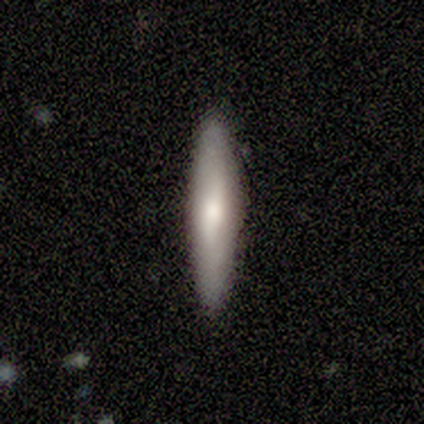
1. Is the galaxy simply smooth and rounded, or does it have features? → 60% featured or disk, 40% smooth, 0% star or artifact.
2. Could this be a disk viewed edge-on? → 100% yes, 0% no.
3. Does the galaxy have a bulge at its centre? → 100% rounded, 0% boxy, 0% none.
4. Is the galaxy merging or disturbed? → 100% none, 0% minor disturbance, 0% major disturbance, 0% merger.